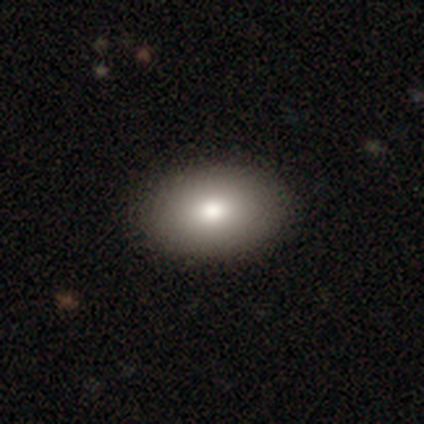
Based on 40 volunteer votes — This is clearly a smooth galaxy (82%). How rounded: likely in between (76%). Merging: clearly none (92%).